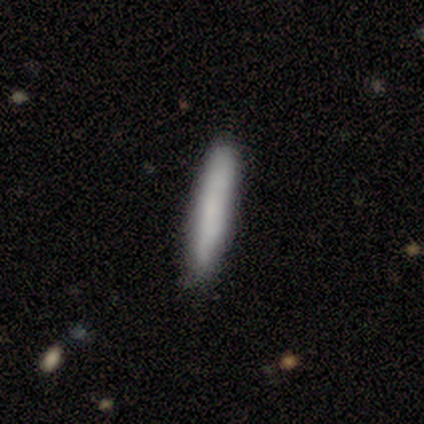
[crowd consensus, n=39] Q: Smooth or featured?
A: smooth (82%); runner-up: featured or disk (13%)
Q: How rounded?
A: cigar-shaped (100%)
Q: Merging?
A: none (95%); runner-up: minor disturbance (5%)